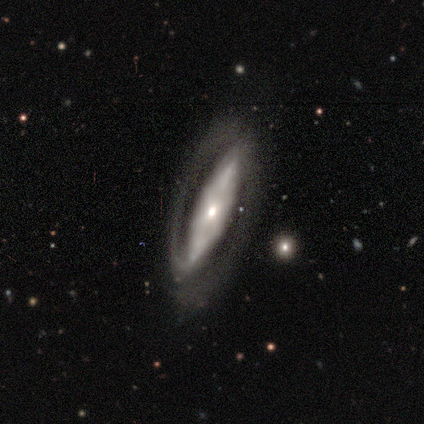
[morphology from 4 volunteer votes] Smooth or featured? 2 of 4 (50%, tied with featured or disk) said smooth. How rounded? 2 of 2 (100%) said in between. Merging? 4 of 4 (100%) said none.